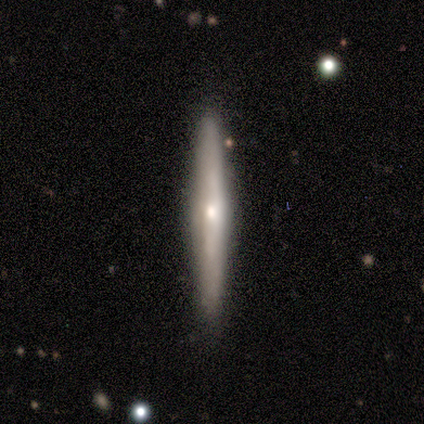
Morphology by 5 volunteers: Smooth or featured? 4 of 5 (80%) said smooth. How rounded? 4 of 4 (100%) said cigar-shaped. Merging? 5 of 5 (100%) said none.